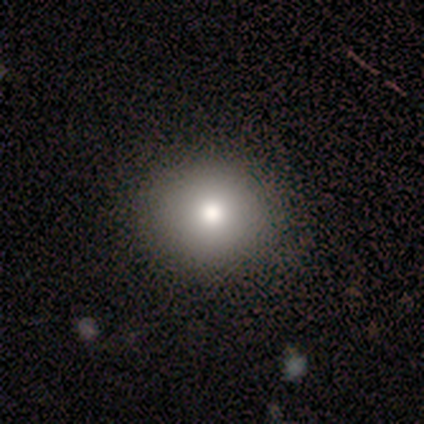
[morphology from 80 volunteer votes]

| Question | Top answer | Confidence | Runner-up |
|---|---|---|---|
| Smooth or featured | smooth | 81% | star or artifact (12%) |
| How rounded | round | 89% | in between (9%) |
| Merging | none | 51% | minor disturbance (6%) |